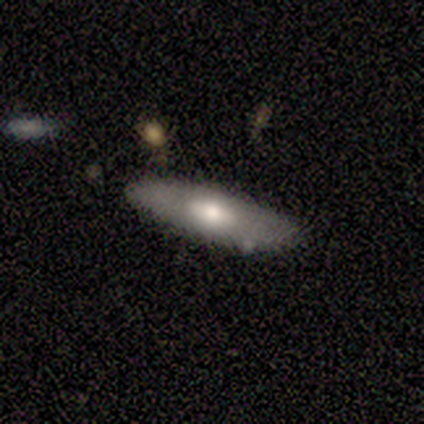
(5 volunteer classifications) Smooth or featured? smooth (80%)
How rounded? in between (75%)
Merging? none (100%)